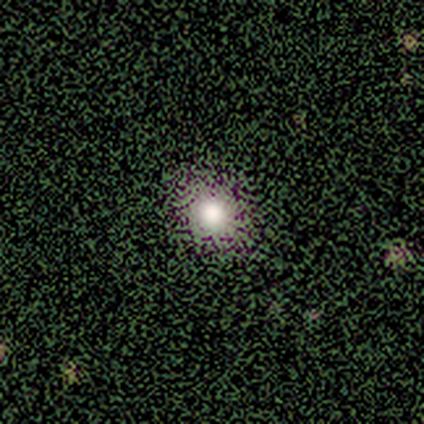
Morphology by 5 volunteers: type=smooth (60%); roundness=round (100%); merging=none (67%).